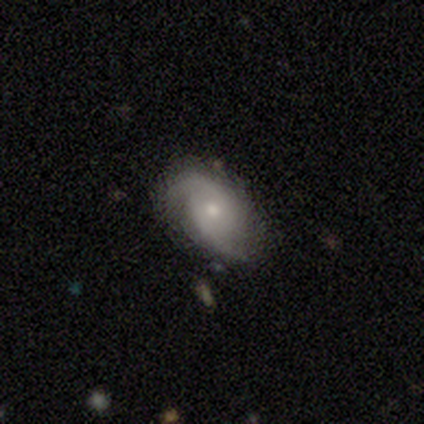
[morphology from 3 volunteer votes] featured or disk 67%, smooth 33%, star or artifact 0%. Down the decision tree: edge-on disk — no (100%); bar — no (100%); spiral arms — yes (100%); spiral arm count — 2 (100%); spiral winding — tight (50%, tied with medium); bulge size — small (100%); merging — none (100%).